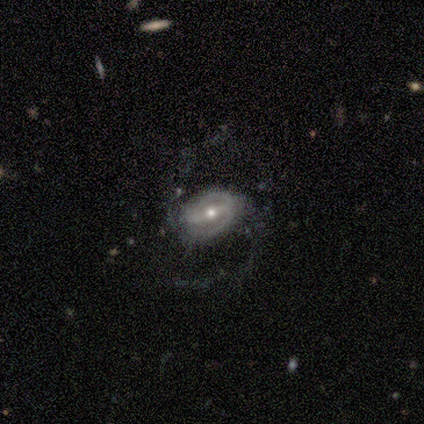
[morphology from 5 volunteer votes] Overall: featured or disk (80%). Edge-on disk: no (100%). Bar: strong (50%, tied with weak). Spiral arms: yes (100%). Spiral arm count: 2 (100%). Spiral winding: loose (75%). Bulge size: moderate (75%). Merging: none (60%; minor disturbance 20%).